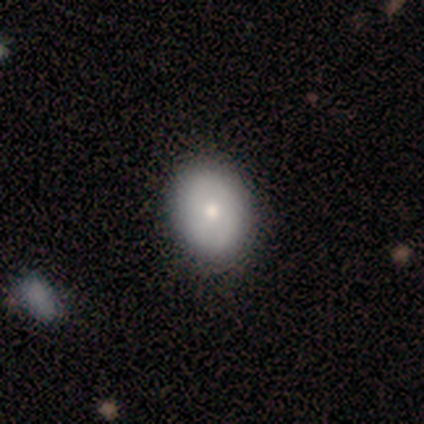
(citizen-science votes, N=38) A smooth galaxy with no disk features (74%) that is in between round and cigar-shaped (79%).

Vote fractions:
- Smooth or featured? smooth: 74% / featured or disk: 24% / star or artifact: 3%
- How rounded? in between: 79% / round: 21% / cigar-shaped: 0%
- Merging? none: 62% / minor disturbance: 3% / major disturbance: 0% / merger: 0%